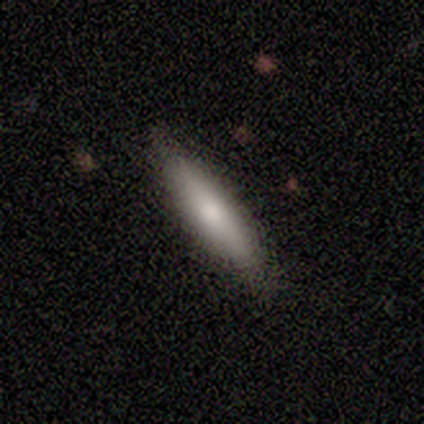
This is clearly a smooth galaxy (80%). How rounded: likely cigar-shaped (75%). Merging: marginally none (40%, tied with minor disturbance).